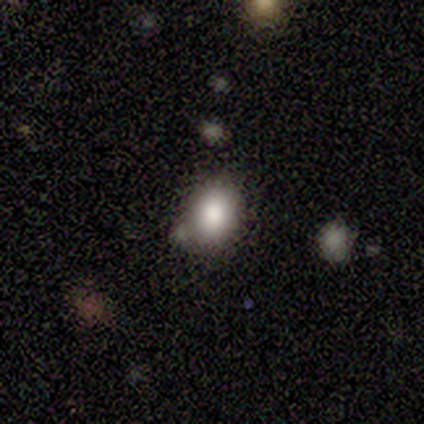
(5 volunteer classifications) Smooth or featured: smooth — 100%
How rounded: round — 80% (in between — 20%)
Merging: none — 80% (minor disturbance — 20%)